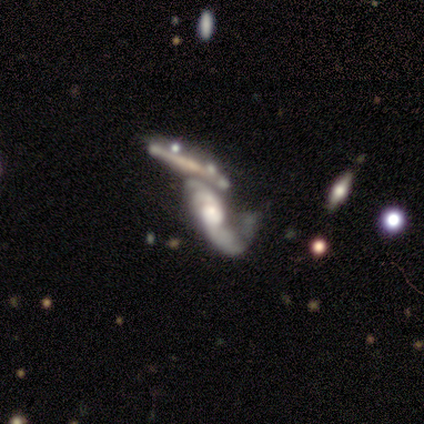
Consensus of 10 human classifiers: Volunteers were most divided on "bar": weak: 57%, no: 43%, strong: 0%. More confident: spiral arms — yes (100%); smooth or featured — featured or disk (90%); edge-on disk — no (78%); bulge size — large (71%); merging — merger (70%); spiral winding — loose (57%); spiral arm count — 3 (57%).